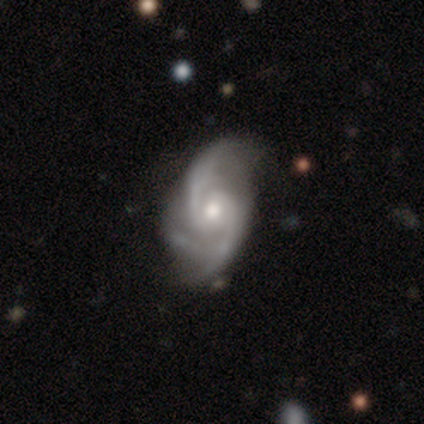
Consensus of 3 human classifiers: This appears to be a featured or disk galaxy (100%) with no bar (100%), 2 (50%, tied with 3) medium (100%) spiral arms (67%) and a moderate central bulge (67%). Merging: none (33%, tied with minor disturbance and major disturbance).